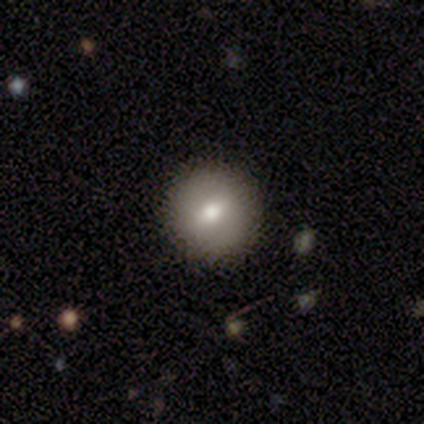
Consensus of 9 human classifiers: Smooth or featured? smooth (78%)
How rounded? round (100%)
Merging? none (88%)